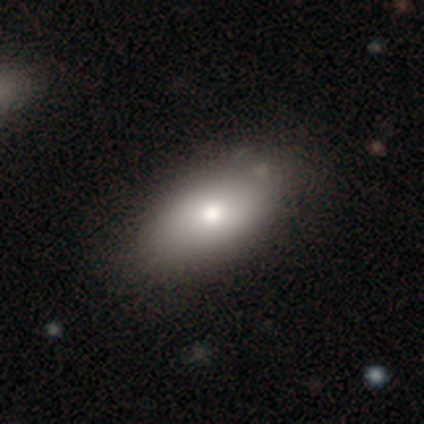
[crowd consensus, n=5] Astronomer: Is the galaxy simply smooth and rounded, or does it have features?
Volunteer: smooth — 60% (runner-up: featured or disk, 40%).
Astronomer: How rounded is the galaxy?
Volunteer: in between — 100%.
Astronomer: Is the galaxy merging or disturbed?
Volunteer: none — 80%.